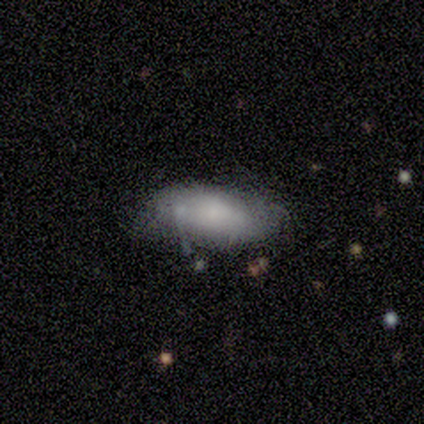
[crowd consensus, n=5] Smooth or featured: smooth — 100%
How rounded: in between — 80% (cigar-shaped — 20%)
Merging: minor disturbance — 60% (none — 40%)